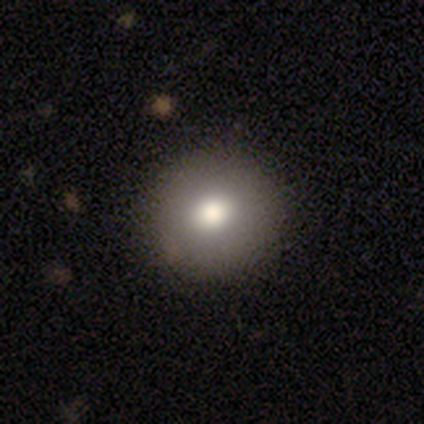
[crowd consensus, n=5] Q: Smooth or featured?
A: smooth (60%); runner-up: featured or disk (20%)
Q: How rounded?
A: round (100%)
Q: Merging?
A: none (100%)